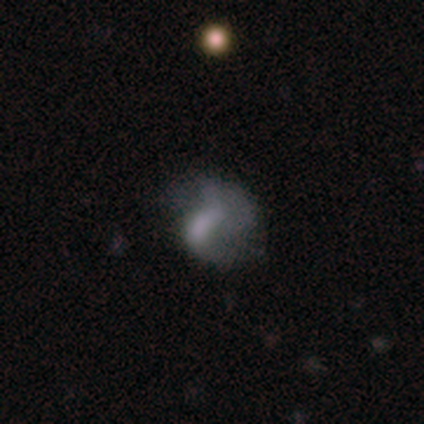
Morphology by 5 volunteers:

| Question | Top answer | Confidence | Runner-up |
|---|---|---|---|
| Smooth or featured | smooth | 60% | featured or disk (20%) |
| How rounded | round | 67% | in between (33%) |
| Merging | minor disturbance | 50% | none (25%) |